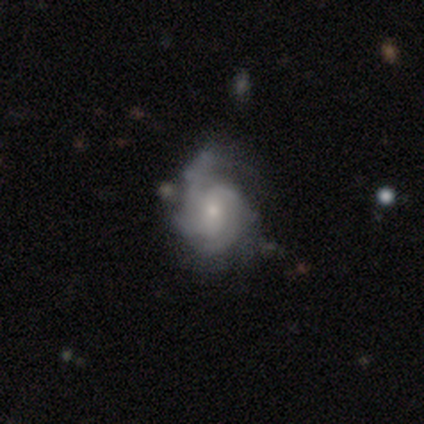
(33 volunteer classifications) Smooth or featured?
  - featured or disk: 85% *
  - smooth: 12%
  - star or artifact: 3%
Edge-on disk?
  - no: 96% *
  - yes: 4%
Bar?
  - no: 56% *
  - weak: 41%
  - strong: 4%
Spiral arms?
  - yes: 100% *
  - no: 0%
Spiral winding?
  - tight: 52% *
  - medium: 41%
  - loose: 7%
Spiral arm count?
  - 4: 26% * (tied)
  - can't tell: 26% * (tied)
  - 2: 22%
  - 3: 19%
  - 1: 7%
  - more than 4: 0%
Bulge size?
  - small: 48% *
  - moderate: 44%
  - large: 4%
  - none: 4%
  - dominant: 0%
Merging?
  - minor disturbance: 38% *
  - none: 31%
  - major disturbance: 19%
  - merger: 12%